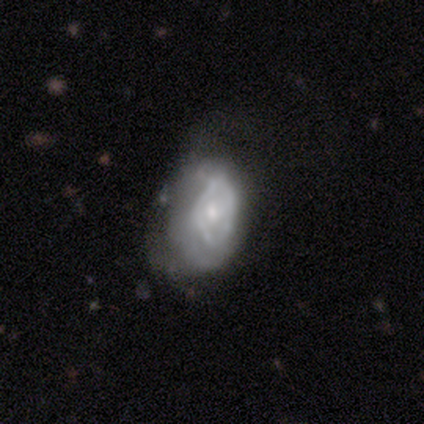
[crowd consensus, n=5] Q: Smooth or featured?
A: featured or disk (60%); runner-up: smooth (20%)
Q: Edge-on disk?
A: no (100%)
Q: Bar?
A: no (67%); runner-up: weak (33%)
Q: Spiral arms?
A: no (100%)
Q: Bulge size?
A: small (67%); runner-up: moderate (33%)
Q: Merging?
A: major disturbance (50%); runner-up: none (25%)